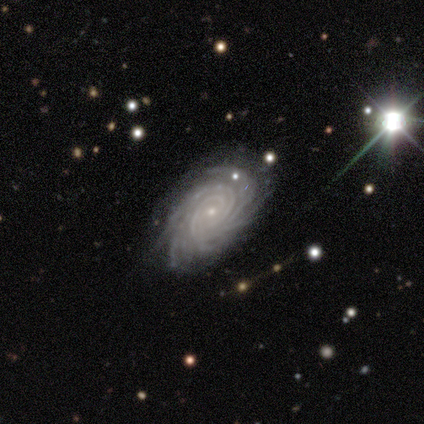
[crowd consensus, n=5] Overall: featured or disk (100%). Edge-on disk: no (100%). Bar: no (60%; strong 20%). Spiral arms: yes (100%). Spiral arm count: more than 4 (80%). Spiral winding: tight (100%). Bulge size: small (80%). Merging: none (60%; minor disturbance 20%).